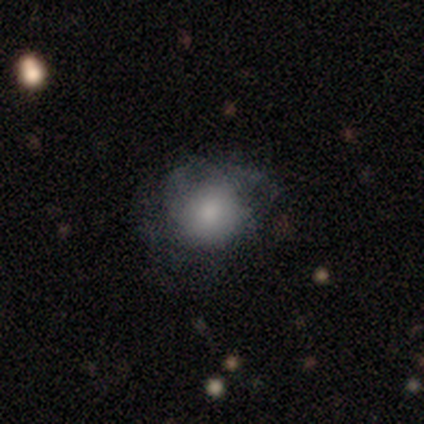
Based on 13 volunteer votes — A smooth galaxy with no disk features (85%) that is round (82%).

Vote fractions:
- Smooth or featured? smooth: 85% / featured or disk: 15% / star or artifact: 0%
- How rounded? round: 82% / in between: 18% / cigar-shaped: 0%
- Merging? major disturbance: 46% / none: 31% / minor disturbance: 23% / merger: 0%